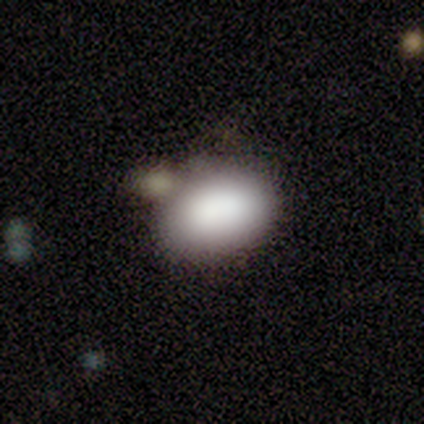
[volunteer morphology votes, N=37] smooth-or-featured: smooth: 86% | featured or disk: 8% | star or artifact: 5%
  how-rounded: in between: 91% | round: 9% | cigar-shaped: 0%
  merging: none: 71% | minor disturbance: 17% | merger: 11% | major disturbance: 0%